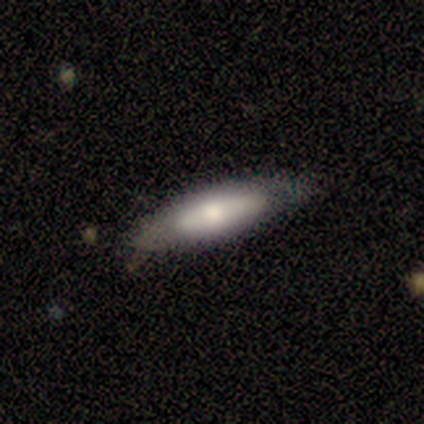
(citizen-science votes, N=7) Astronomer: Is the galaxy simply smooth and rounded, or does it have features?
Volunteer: smooth — 57% (runner-up: featured or disk, 43%).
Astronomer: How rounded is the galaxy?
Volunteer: cigar-shaped — 75%.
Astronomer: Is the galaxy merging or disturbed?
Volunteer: none — 71%.